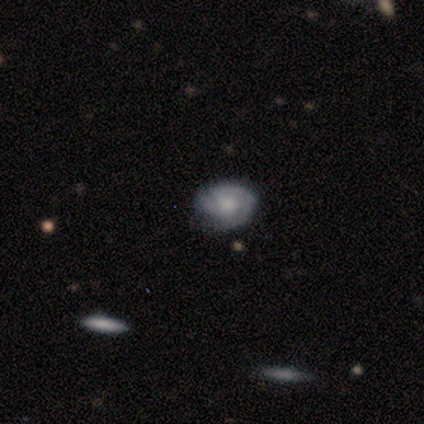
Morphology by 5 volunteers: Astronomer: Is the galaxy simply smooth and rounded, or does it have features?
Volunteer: smooth — 60% (runner-up: featured or disk, 40%).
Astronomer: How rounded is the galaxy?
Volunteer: in between — 100%.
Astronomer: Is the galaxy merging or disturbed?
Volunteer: none — 40%, tied with major disturbance at 40%.